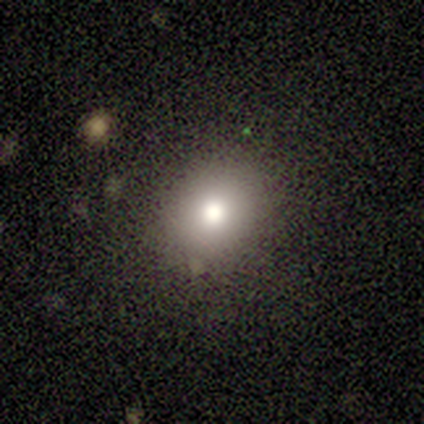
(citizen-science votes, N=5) A smooth galaxy with no disk features (100%) that is in between round and cigar-shaped (60%).

Vote fractions:
- Smooth or featured? smooth: 100% / featured or disk: 0% / star or artifact: 0%
- How rounded? in between: 60% / round: 40% / cigar-shaped: 0%
- Merging? none: 100% / minor disturbance: 0% / major disturbance: 0% / merger: 0%